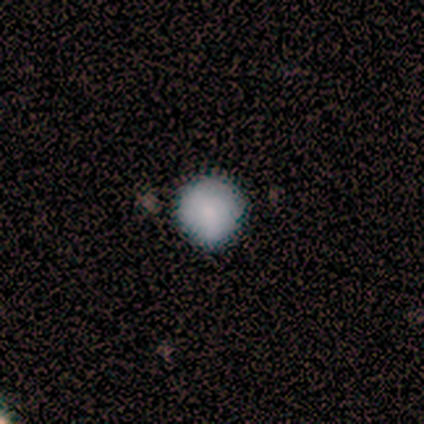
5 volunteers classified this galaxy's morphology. Smooth or featured?
  - smooth: 100% *
  - featured or disk: 0%
  - star or artifact: 0%
How rounded?
  - round: 100% *
  - in between: 0%
  - cigar-shaped: 0%
Merging?
  - none: 80% *
  - minor disturbance: 20%
  - major disturbance: 0%
  - merger: 0%